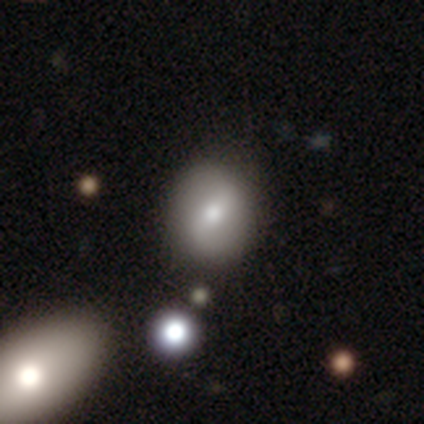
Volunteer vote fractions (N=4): smooth-or-featured: smooth: 50% (tied) | featured or disk: 50% (tied) | star or artifact: 0%
  how-rounded: in between: 100% | round: 0% | cigar-shaped: 0%
  merging: none: 100% | minor disturbance: 0% | major disturbance: 0% | merger: 0%